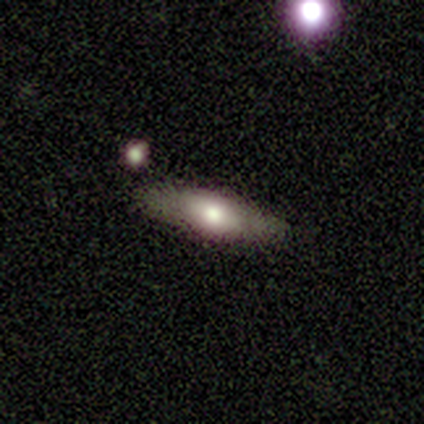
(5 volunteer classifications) A smooth galaxy with no disk features (80%) that is cigar-shaped (100%).

Vote fractions:
- Smooth or featured? smooth: 80% / featured or disk: 20% / star or artifact: 0%
- How rounded? cigar-shaped: 100% / round: 0% / in between: 0%
- Merging? none: 80% / major disturbance: 20% / minor disturbance: 0% / merger: 0%